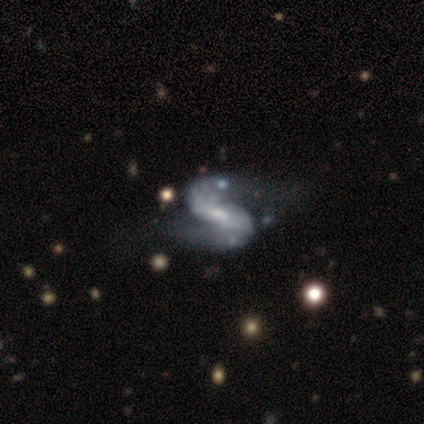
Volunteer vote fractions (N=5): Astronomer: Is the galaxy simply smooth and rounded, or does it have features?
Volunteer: featured or disk — 100%.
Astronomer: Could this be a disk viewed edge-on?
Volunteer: no — 100%.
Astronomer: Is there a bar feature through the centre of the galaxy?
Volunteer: strong — 60% (runner-up: no, 40%).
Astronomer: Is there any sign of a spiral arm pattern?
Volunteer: yes — 100%.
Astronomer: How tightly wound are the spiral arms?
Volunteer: loose — 60% (runner-up: medium, 40%).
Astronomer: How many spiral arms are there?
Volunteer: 2 — 100%.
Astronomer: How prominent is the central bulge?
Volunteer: small — 60% (runner-up: moderate, 40%).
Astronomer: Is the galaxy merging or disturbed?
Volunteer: none — 40%, tied with major disturbance at 40%.